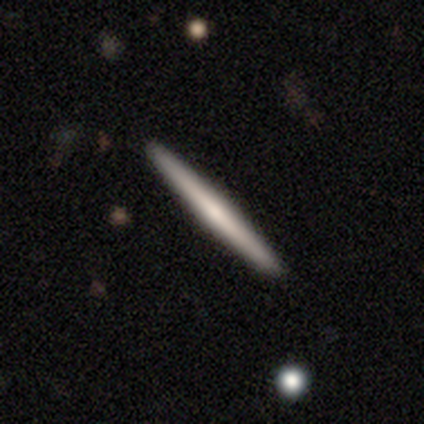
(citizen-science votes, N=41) A featured or disk galaxy (59%) viewed edge-on (96%) with no central bulge (48%, tied with rounded). Merging: none (98%).